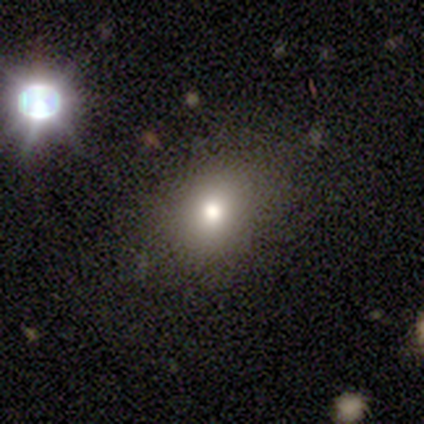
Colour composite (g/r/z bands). It shows a smooth galaxy with no disk features (80%) that is in between round and cigar-shaped (75%). Merging: none (100%).